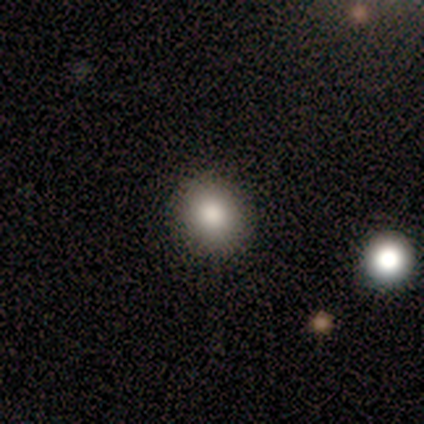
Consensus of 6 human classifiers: Smooth or featured?
  - smooth: 83% *
  - featured or disk: 17%
  - star or artifact: 0%
How rounded?
  - round: 80% *
  - in between: 20%
  - cigar-shaped: 0%
Merging?
  - none: 100% *
  - minor disturbance: 0%
  - major disturbance: 0%
  - merger: 0%